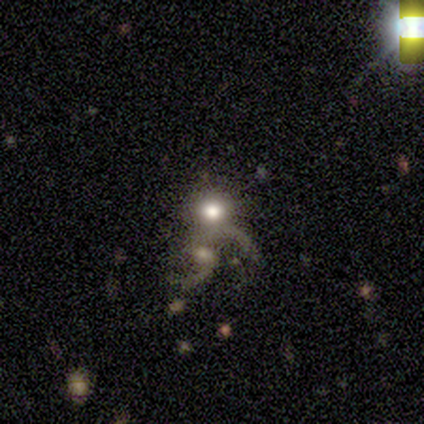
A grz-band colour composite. It shows a smooth galaxy with no disk features (50%) that is round (100%). Merging: merger (67%).